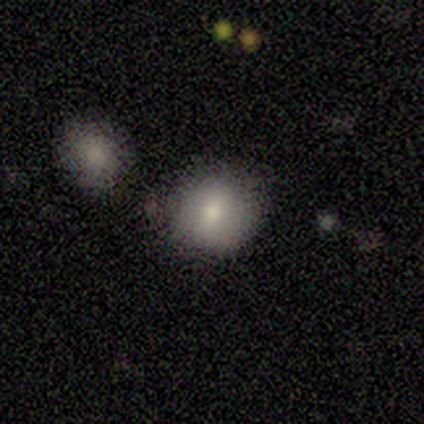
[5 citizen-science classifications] smooth_or_featured: smooth (p=1.00)
how_rounded: round (p=1.00)
merging: none (p=1.00)